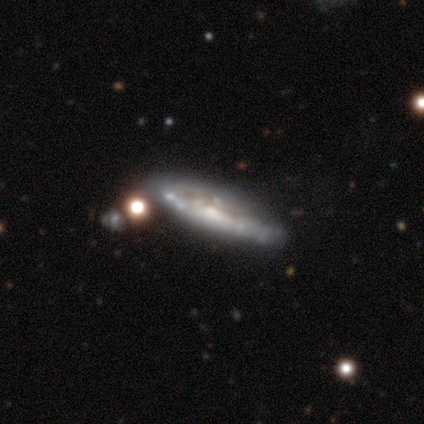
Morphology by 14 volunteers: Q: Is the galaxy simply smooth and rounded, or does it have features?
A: featured or disk — 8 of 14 (57%).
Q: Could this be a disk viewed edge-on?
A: yes — 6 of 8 (75%).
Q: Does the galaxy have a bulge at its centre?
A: rounded — 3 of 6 (50%).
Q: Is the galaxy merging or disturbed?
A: none — 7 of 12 (58%).